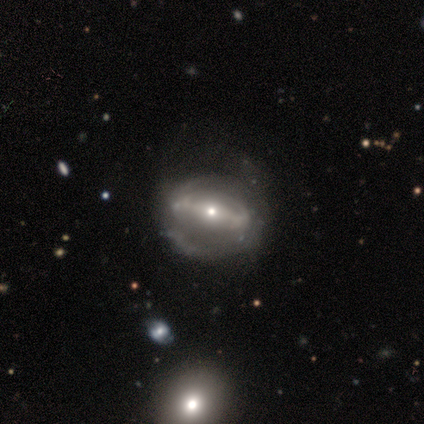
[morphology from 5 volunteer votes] Volunteers were most divided on "spiral arms": no: 60%, yes: 40%. More confident: smooth or featured — featured or disk (100%); edge-on disk — no (100%); bar — strong (80%); bulge size — small (60%); merging — none (60%).